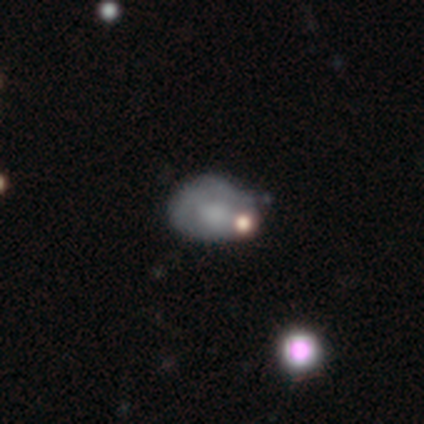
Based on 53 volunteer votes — A smooth galaxy with no disk features (49%) that is in between round and cigar-shaped (85%). Merging: none (52%).